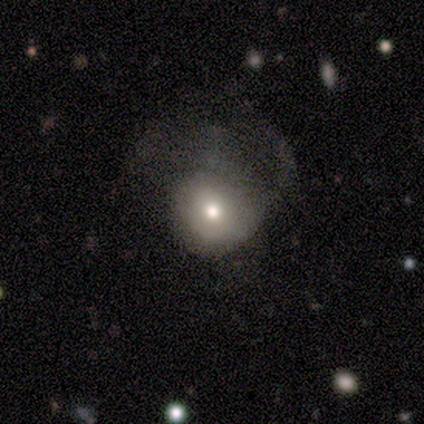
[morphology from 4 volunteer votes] smooth-or-featured: smooth: 75% | featured or disk: 25% | star or artifact: 0%
  how-rounded: round: 67% | in between: 33% | cigar-shaped: 0%
  merging: major disturbance: 50% | none: 25% | minor disturbance: 25% | merger: 0%